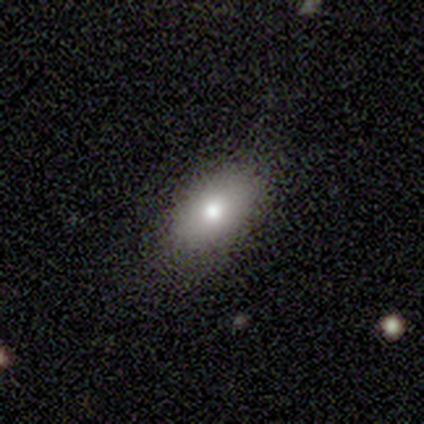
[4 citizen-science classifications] Q: Smooth or featured?
A: smooth (100%)
Q: How rounded?
A: in between (100%)
Q: Merging?
A: none (75%); runner-up: minor disturbance (25%)